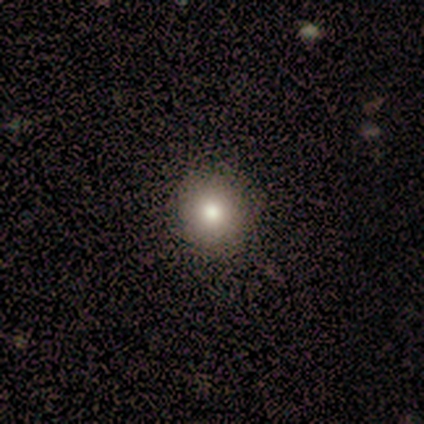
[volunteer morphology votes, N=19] Overall: smooth (79%). How rounded: round (93%). Merging: none (94%).